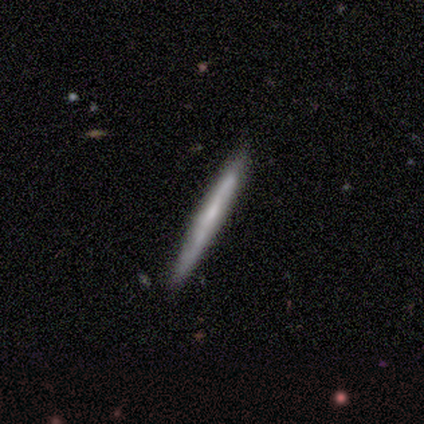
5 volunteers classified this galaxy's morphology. type=featured or disk (80%); edge-on=yes (75%); edge-on bulge=none (100%); merging=none (100%).